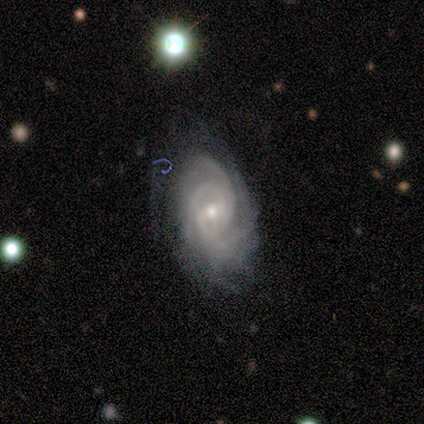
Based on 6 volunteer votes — smooth_or_featured: featured or disk (p=1.00)
disk_edge_on: no (p=1.00)
bar: no (p=0.50) [alt: weak p=0.33]
has_spiral_arms: yes (p=1.00)
spiral_winding: tight (p=0.83) [alt: medium p=0.17]
spiral_arm_count: 4 (p=0.67) [alt: 3 p=0.33]
bulge_size: moderate (p=0.50) [tied with: small p=0.50]
merging: none (p=0.83) [alt: minor disturbance p=0.17]